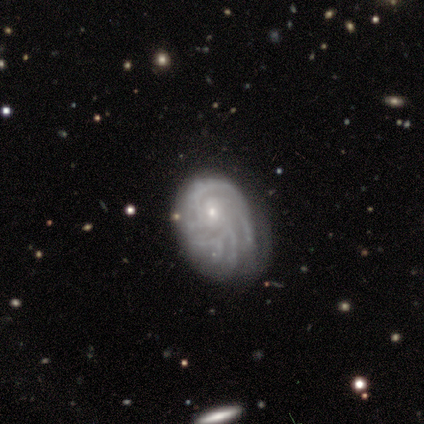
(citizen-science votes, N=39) smooth_or_featured: featured or disk (p=0.87) [alt: smooth p=0.08]
disk_edge_on: no (p=0.94) [alt: yes p=0.06]
bar: no (p=0.62) [alt: weak p=0.38]
has_spiral_arms: yes (p=0.97) [alt: no p=0.03]
spiral_winding: tight (p=0.61) [alt: medium p=0.35]
spiral_arm_count: can't tell (p=0.42) [alt: more than 4 p=0.19]
bulge_size: small (p=0.91) [alt: moderate p=0.09]
merging: none (p=0.35) [alt: minor disturbance p=0.32]